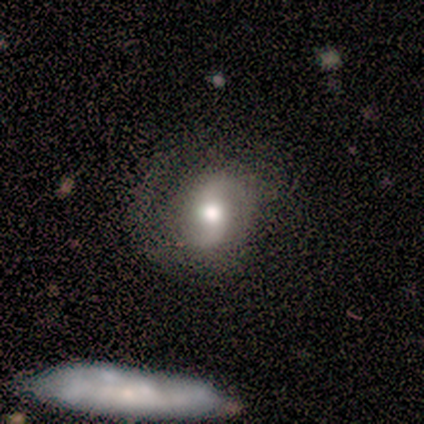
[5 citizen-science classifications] smooth-or-featured: featured or disk: 80% | smooth: 20% | star or artifact: 0%
  disk-edge-on: no: 100% | yes: 0%
    bar: weak: 100% | strong: 0% | no: 0%
    has-spiral-arms: yes: 100% | no: 0%
      spiral-winding: loose: 50% | tight: 25% | medium: 25%
      spiral-arm-count: 2: 100% | 1: 0% | 3: 0% | 4: 0% | more than 4: 0% | can't tell: 0%
    bulge-size: moderate: 75% | large: 25% | dominant: 0% | small: 0% | none: 0%
  merging: none: 100% | minor disturbance: 0% | major disturbance: 0% | merger: 0%